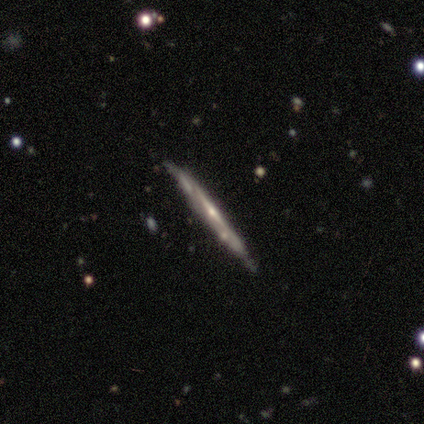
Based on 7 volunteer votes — Overall: featured or disk (100%). Edge-on disk: yes (100%). Edge-on bulge: none (57%; rounded 43%). Merging: none (86%).